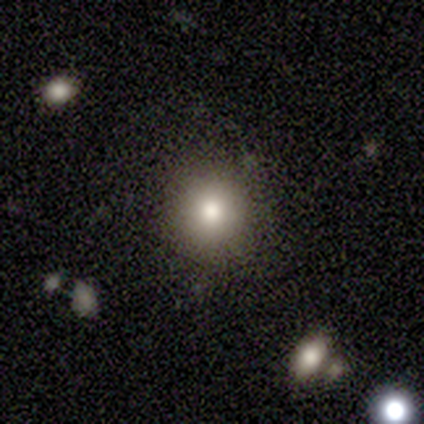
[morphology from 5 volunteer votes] A smooth galaxy with no disk features (80%) that is round (100%). Merging: none (100%).